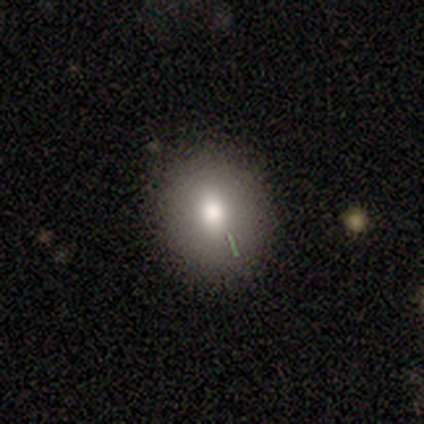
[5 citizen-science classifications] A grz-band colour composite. It shows a smooth galaxy with no disk features (60%) that is in between round and cigar-shaped (67%). Merging: none (100%).